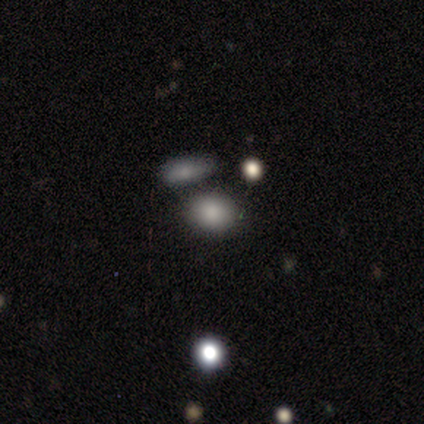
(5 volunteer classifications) Q: Smooth or featured?
A: smooth (60%); runner-up: featured or disk (20%)
Q: How rounded?
A: round (67%); runner-up: in between (33%)
Q: Merging?
A: none (50%); runner-up: minor disturbance (25%)